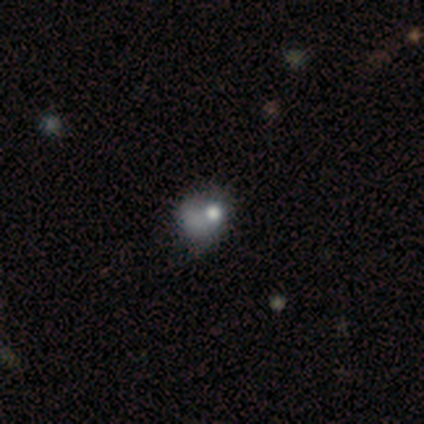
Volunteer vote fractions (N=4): This appears to be a smooth galaxy with no disk features (50%) that is round (50%, tied with in between). Merging: major disturbance (67%).